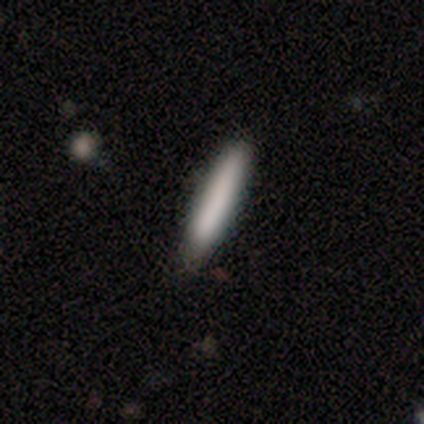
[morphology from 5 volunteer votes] Volunteers were most divided on "smooth or featured": smooth: 60%, featured or disk: 20%, star or artifact: 20%. More confident: how rounded — cigar-shaped (100%); merging — none (75%).